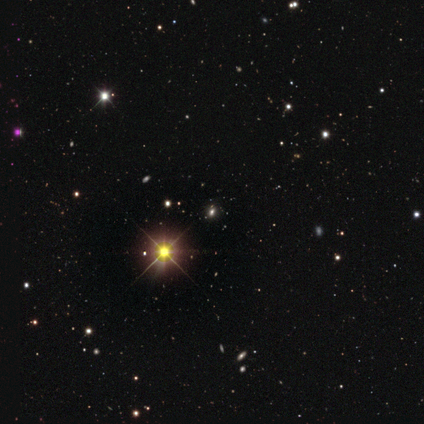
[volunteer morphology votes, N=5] Q: Smooth or featured?
A: star or artifact (100%)